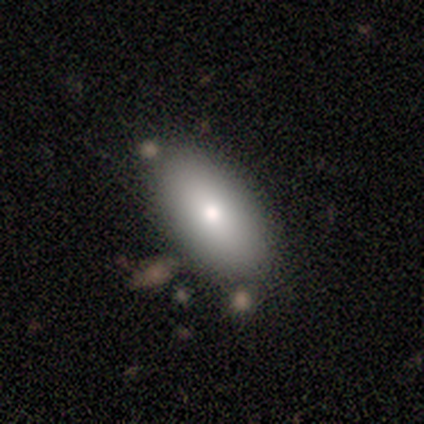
Smooth or featured: smooth — 100%
How rounded: in between — 100%
Merging: none — 100%